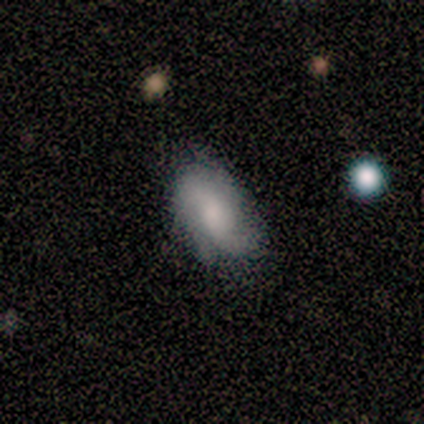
This is likely a featured or disk galaxy (60%). It is clearly not viewed edge-on (100%). Bar: likely no (67%). Spiral arm pattern: likely yes (67%). Spiral arm count: clearly 2 (100%). Spiral winding: possibly tight (50%, tied with loose). Central bulge: likely large (67%). Merging: likely none (60%).